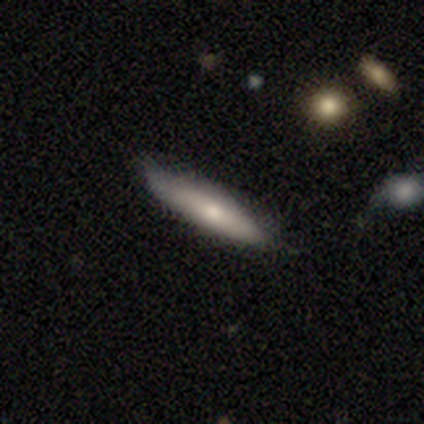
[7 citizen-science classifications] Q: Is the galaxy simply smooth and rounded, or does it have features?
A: smooth — 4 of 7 (57%).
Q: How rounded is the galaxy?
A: cigar-shaped — 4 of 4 (100%).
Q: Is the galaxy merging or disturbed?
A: none — 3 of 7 (43%, tied with minor disturbance).